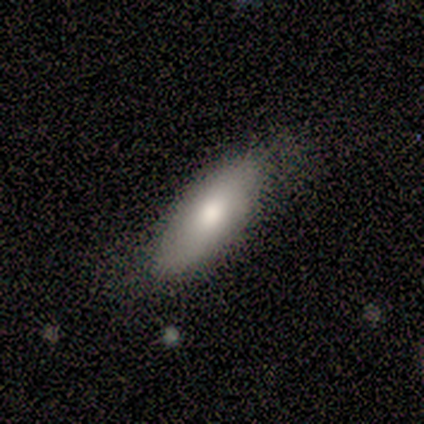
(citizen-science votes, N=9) Smooth or featured? smooth (89%)
How rounded? in between (75%)
Merging? minor disturbance (44%)